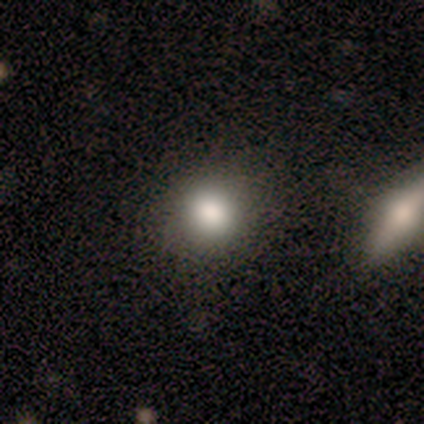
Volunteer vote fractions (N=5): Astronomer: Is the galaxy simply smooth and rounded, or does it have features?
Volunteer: smooth — 60% (runner-up: star or artifact, 40%).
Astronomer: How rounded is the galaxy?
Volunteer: round — 100%.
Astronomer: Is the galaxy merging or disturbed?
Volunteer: none — 100%.